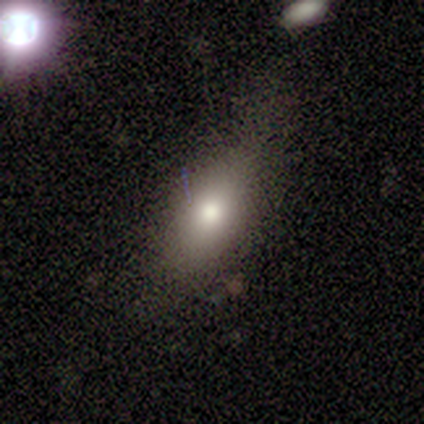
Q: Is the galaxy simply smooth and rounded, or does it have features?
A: smooth — 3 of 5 (60%).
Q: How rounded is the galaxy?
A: in between — 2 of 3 (67%).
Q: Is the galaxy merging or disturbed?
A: none — 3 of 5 (60%).